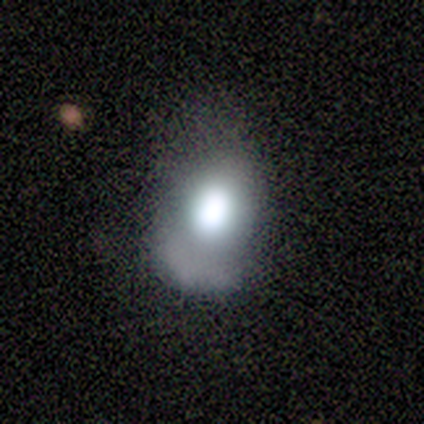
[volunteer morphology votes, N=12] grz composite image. It shows a smooth galaxy with no disk features (75%) that is in between round and cigar-shaped (78%). Merging: none (60%).